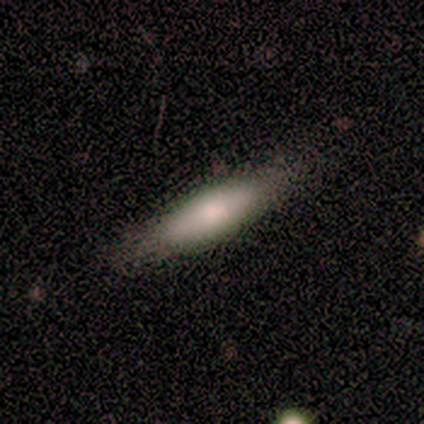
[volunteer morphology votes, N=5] This is clearly a smooth galaxy (80%). How rounded: likely cigar-shaped (75%). Merging: likely none (60%).